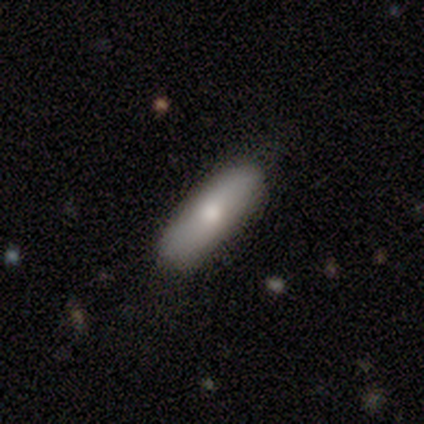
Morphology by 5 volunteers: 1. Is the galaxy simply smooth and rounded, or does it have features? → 80% smooth, 20% featured or disk, 0% star or artifact.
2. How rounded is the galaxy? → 75% cigar-shaped, 25% in between, 0% round.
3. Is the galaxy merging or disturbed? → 60% none, 40% minor disturbance, 0% major disturbance, 0% merger.